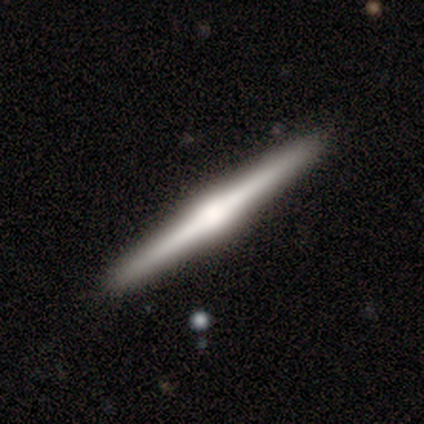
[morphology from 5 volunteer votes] type=featured or disk (80%); edge-on=yes (100%); edge-on bulge=rounded (75%); merging=none (100%).